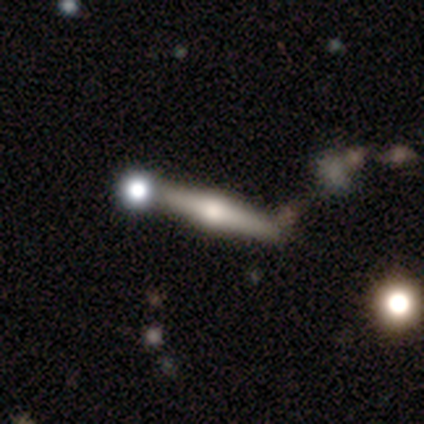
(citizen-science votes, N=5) Smooth or featured? featured or disk (80%)
Edge-on disk? yes (100%)
Edge-on bulge? rounded (100%)
Merging? none (60%)